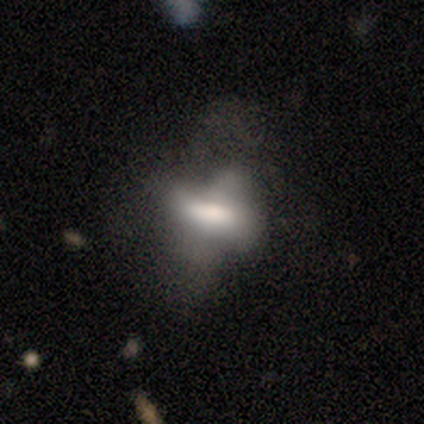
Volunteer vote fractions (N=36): This is possibly a smooth galaxy (50%). How rounded: likely in between (78%). Merging: possibly major disturbance (52%).